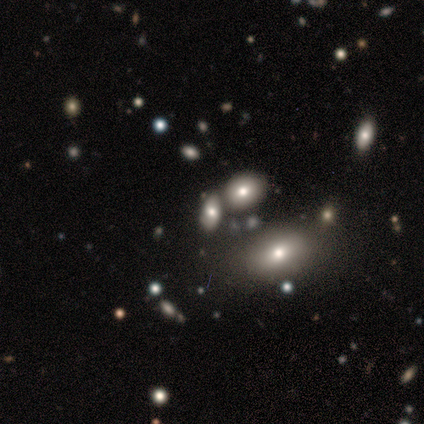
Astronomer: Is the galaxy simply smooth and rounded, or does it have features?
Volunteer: smooth — 60% (runner-up: star or artifact, 40%).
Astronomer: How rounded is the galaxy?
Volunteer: in between — 67%.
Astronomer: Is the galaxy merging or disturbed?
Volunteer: none — 33%, tied with minor disturbance and merger at 33%.